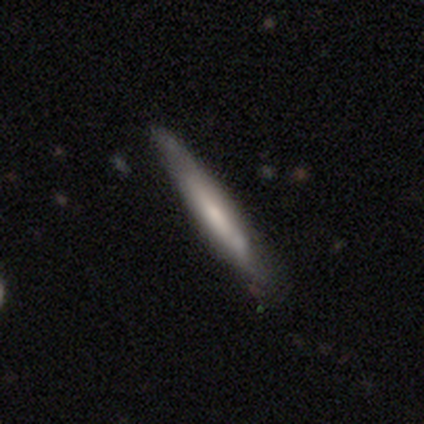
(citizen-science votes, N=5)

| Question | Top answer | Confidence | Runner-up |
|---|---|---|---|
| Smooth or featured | smooth | 100% | — |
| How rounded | cigar-shaped | 80% | in between (20%) |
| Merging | none | 80% | minor disturbance (20%) |